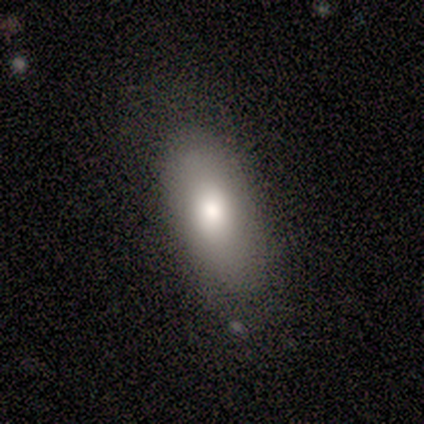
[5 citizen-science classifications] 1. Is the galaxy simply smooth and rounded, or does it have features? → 100% smooth, 0% featured or disk, 0% star or artifact.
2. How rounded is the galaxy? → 100% in between, 0% round, 0% cigar-shaped.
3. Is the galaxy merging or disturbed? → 60% none, 40% minor disturbance, 0% major disturbance, 0% merger.